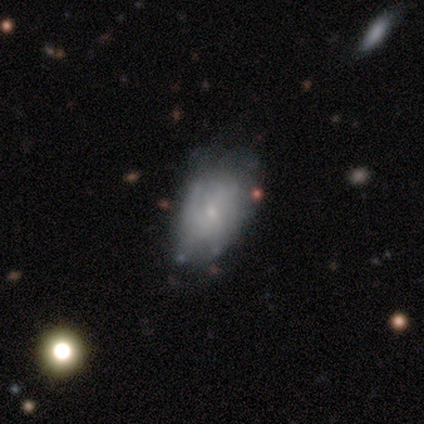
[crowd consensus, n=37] Q: Smooth or featured?
A: featured or disk (54%); runner-up: smooth (30%)
Q: Edge-on disk?
A: no (95%); runner-up: yes (5%)
Q: Bar?
A: no (63%); runner-up: weak (37%)
Q: Spiral arms?
A: yes (58%); runner-up: no (42%)
Q: Spiral winding?
A: loose (45%); runner-up: tight (27%)
Q: Spiral arm count?
A: can't tell (73%); runner-up: 2 (9%)
Q: Bulge size?
A: small (84%); runner-up: dominant (5%)
Q: Merging?
A: none (52%); runner-up: minor disturbance (26%)